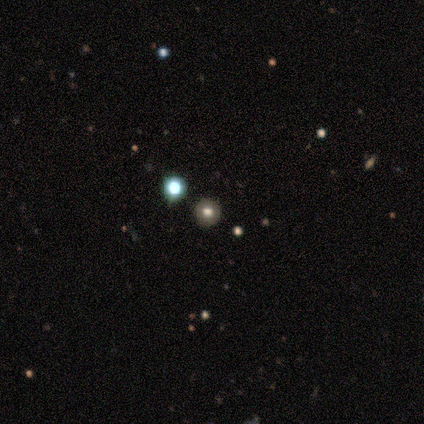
smooth_or_featured: star or artifact (p=0.60) [alt: smooth p=0.40]